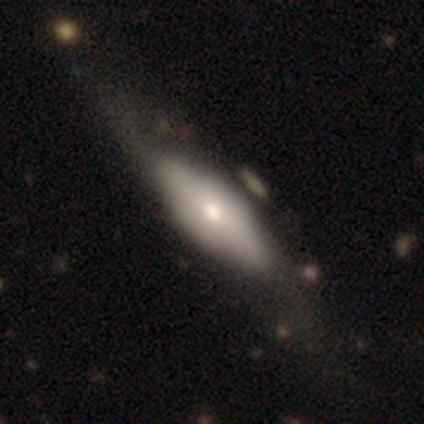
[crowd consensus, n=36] A featured or disk galaxy (53%) with no bar (80%), no spiral arms (80%) and a moderate central bulge (70%). Merging: none (32%).